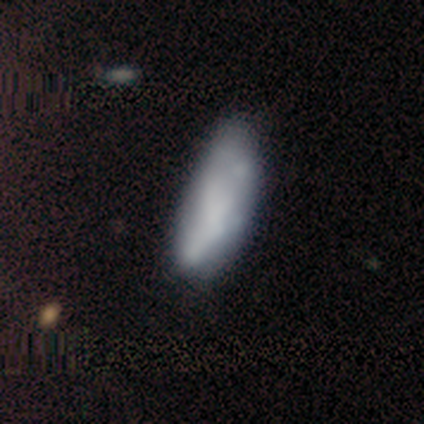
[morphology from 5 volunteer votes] A smooth galaxy with no disk features (60%) that is in between round and cigar-shaped (100%). Merging: none (75%).